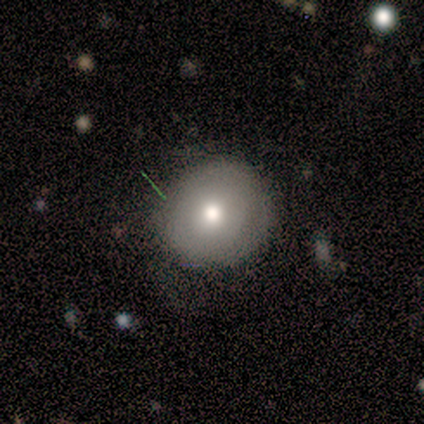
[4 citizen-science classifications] smooth_or_featured: smooth (p=0.75) [alt: featured or disk p=0.25]
how_rounded: round (p=1.00)
merging: none (p=0.75) [alt: minor disturbance p=0.25]